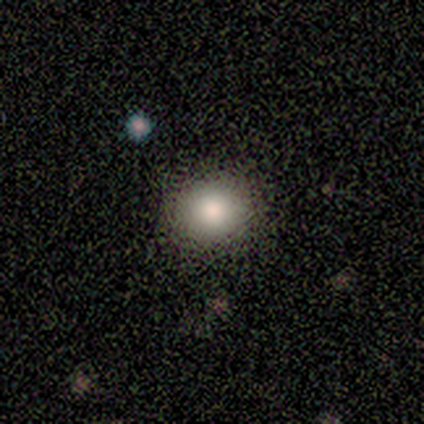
smooth_or_featured: smooth (p=0.60) [alt: featured or disk p=0.20]
how_rounded: round (p=1.00)
merging: none (p=1.00)